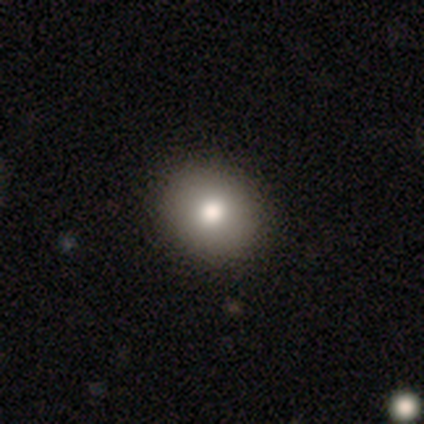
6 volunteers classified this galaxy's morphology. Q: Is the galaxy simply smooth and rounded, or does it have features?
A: smooth — 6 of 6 (100%).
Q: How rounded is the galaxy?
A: round — 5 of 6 (83%).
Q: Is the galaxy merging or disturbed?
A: none — 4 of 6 (67%).